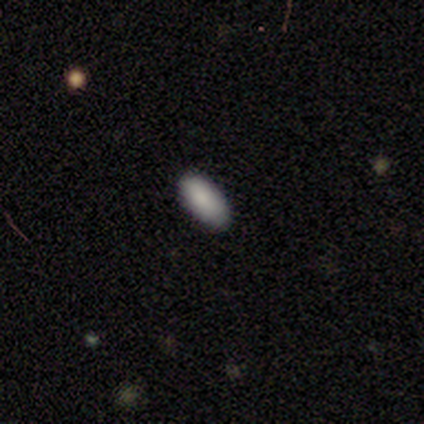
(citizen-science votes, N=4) Q: Smooth or featured?
A: smooth (75%); runner-up: featured or disk (25%)
Q: How rounded?
A: in between (67%); runner-up: cigar-shaped (33%)
Q: Merging?
A: none (75%); runner-up: major disturbance (25%)